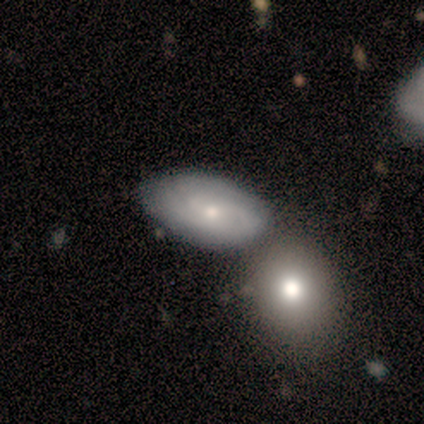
Q: Smooth or featured?
A: smooth (43%); tied with: featured or disk (43%)
Q: How rounded?
A: in between (100%)
Q: Merging?
A: minor disturbance (50%); runner-up: none (33%)